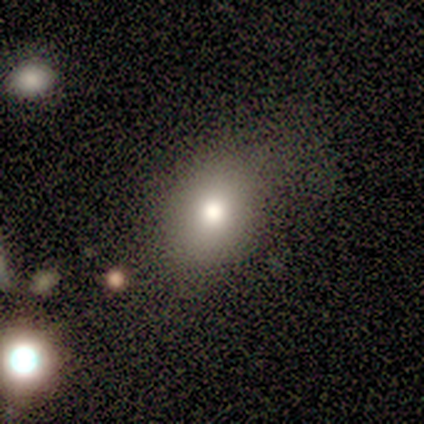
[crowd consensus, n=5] Smooth or featured? 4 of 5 (80%) said smooth. How rounded? 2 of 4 (50%, tied with in between) said round. Merging? 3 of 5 (60%) said none.